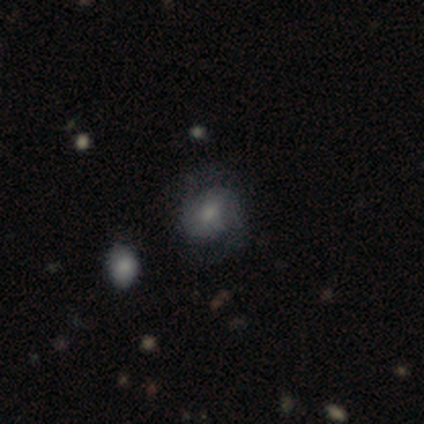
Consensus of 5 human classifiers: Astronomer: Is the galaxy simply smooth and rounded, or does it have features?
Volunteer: smooth — 60% (runner-up: featured or disk, 40%).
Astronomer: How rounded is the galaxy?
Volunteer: in between — 67%.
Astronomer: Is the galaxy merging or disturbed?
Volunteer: none — 60% (runner-up: minor disturbance, 40%).